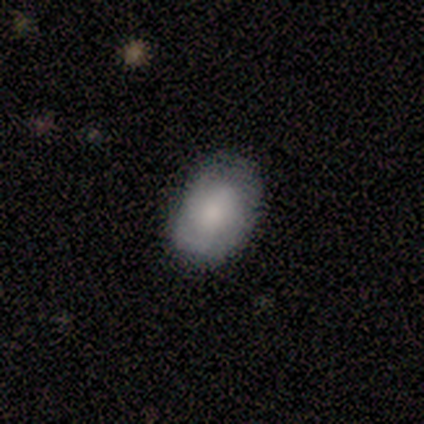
Volunteers were most divided on "smooth or featured": smooth: 80%, featured or disk: 20%, star or artifact: 0%. More confident: how rounded — in between (100%); merging — none (100%).